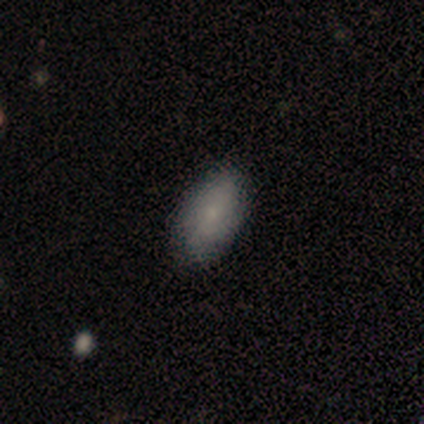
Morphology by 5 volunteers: type=smooth (60%); roundness=in between (100%); merging=none (80%).